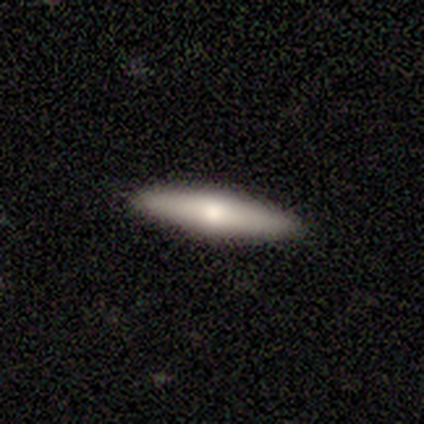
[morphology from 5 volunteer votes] smooth-or-featured: smooth: 100% | featured or disk: 0% | star or artifact: 0%
  how-rounded: cigar-shaped: 100% | round: 0% | in between: 0%
  merging: none: 100% | minor disturbance: 0% | major disturbance: 0% | merger: 0%